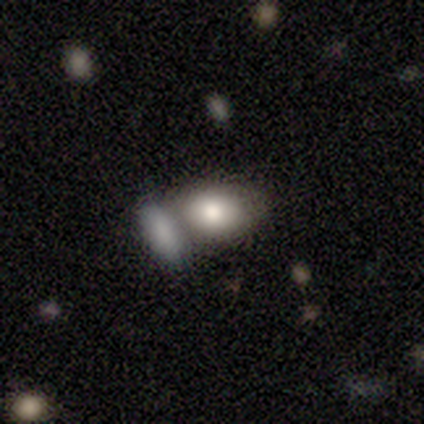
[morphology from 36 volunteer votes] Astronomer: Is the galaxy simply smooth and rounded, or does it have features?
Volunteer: smooth — 69%.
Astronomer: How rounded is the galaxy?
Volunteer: in between — 68%.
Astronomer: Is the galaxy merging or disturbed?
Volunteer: merger — 48% (runner-up: none, 45%).